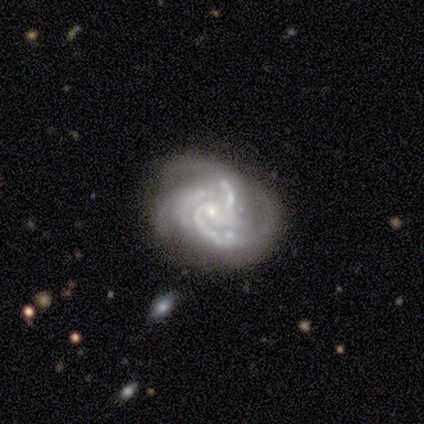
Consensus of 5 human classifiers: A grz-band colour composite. It shows a featured or disk galaxy (100%) with a weak bar (50%, tied with no), 3 (75%) tight (50%, tied with medium) spiral arms (100%) and a small central bulge (100%). Merging: none (100%).